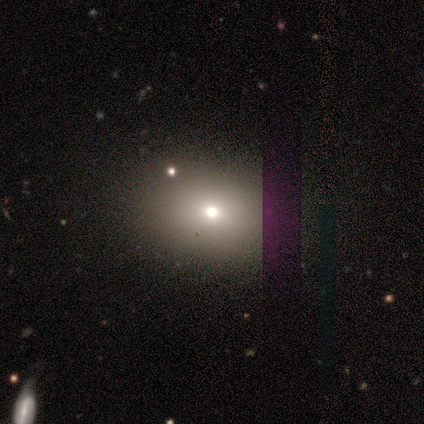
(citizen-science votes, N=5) A smooth galaxy with no disk features (80%) that is in between round and cigar-shaped (75%). Merging: none (60%).